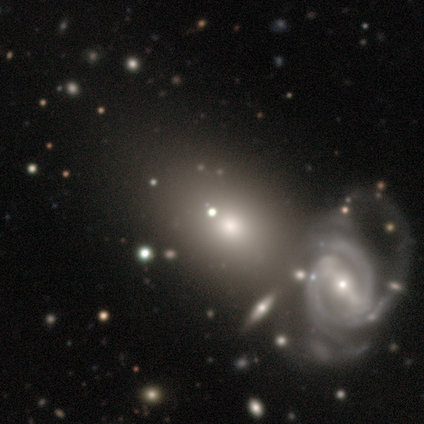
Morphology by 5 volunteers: A featured or disk galaxy (80%) with a strong bar (50%, tied with weak), 2 (33%, tied with 3 and 4) tight (67%) spiral arms (75%) and a small central bulge (75%).

Vote fractions:
- Smooth or featured? featured or disk: 80% / smooth: 20% / star or artifact: 0%
- Edge-on disk? no: 100% / yes: 0%
- Bar? strong: 50% (tied) / weak: 50% (tied) / no: 0%
- Spiral arms? yes: 75% / no: 25%
- Spiral winding? tight: 67% / medium: 33% / loose: 0%
- Spiral arm count? 2: 33% (tied) / 3: 33% (tied) / 4: 33% (tied) / 1: 0% / more than 4: 0% / can't tell: 0%
- Bulge size? small: 75% / large: 25% / dominant: 0% / moderate: 0% / none: 0%
- Merging? merger: 60% / none: 20% / minor disturbance: 20% / major disturbance: 0%